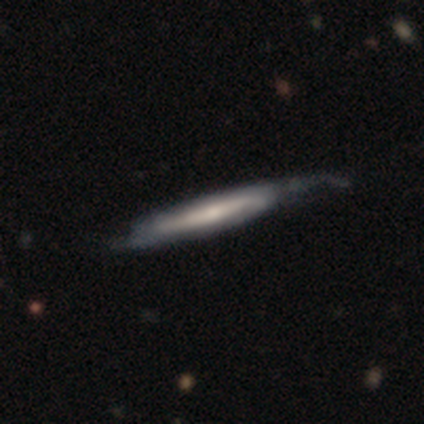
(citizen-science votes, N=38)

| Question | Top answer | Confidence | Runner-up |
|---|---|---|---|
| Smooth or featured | featured or disk | 79% | smooth (18%) |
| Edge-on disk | yes | 87% | no (13%) |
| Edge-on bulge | none | 54% | rounded (42%) |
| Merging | none | 35% | minor disturbance (22%) |